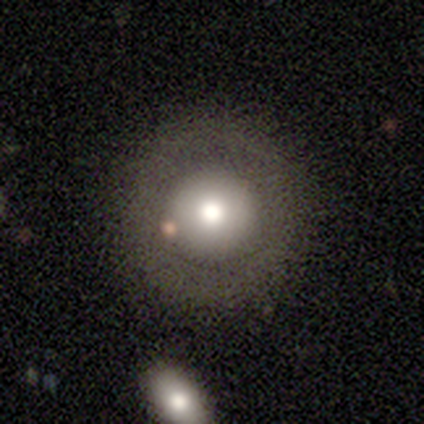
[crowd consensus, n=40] A smooth galaxy with no disk features (70%) that is round (100%). Merging: none (74%).